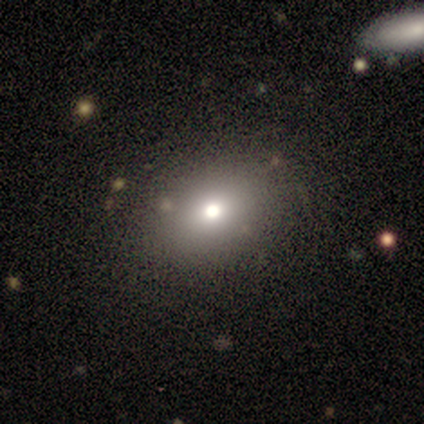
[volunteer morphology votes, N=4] Smooth or featured?
  - smooth: 75% *
  - featured or disk: 25%
  - star or artifact: 0%
How rounded?
  - in between: 67% *
  - round: 33%
  - cigar-shaped: 0%
Merging?
  - none: 75% *
  - major disturbance: 25%
  - minor disturbance: 0%
  - merger: 0%